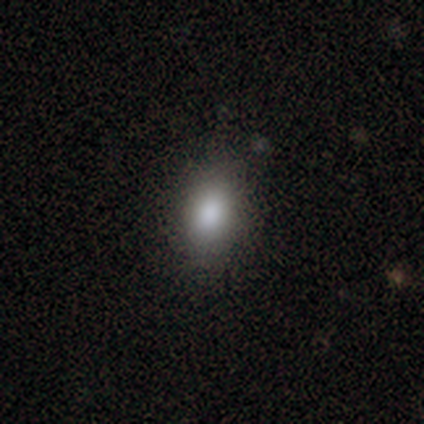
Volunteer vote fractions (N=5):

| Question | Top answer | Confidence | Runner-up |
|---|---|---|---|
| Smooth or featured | smooth | 100% | — |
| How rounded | in between | 80% | round (20%) |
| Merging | none | 100% | — |